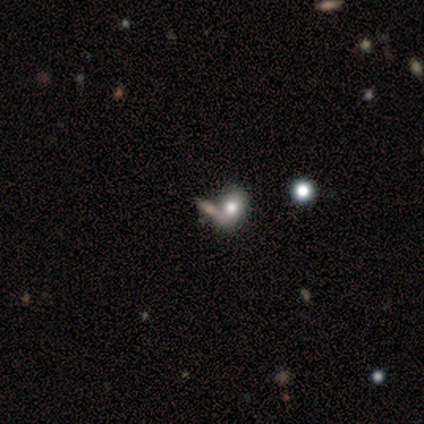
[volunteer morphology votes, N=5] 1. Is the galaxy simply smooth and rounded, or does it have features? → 60% smooth, 40% featured or disk, 0% star or artifact.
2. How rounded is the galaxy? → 100% in between, 0% round, 0% cigar-shaped.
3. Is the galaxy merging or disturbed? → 60% none, 40% merger, 0% minor disturbance, 0% major disturbance.